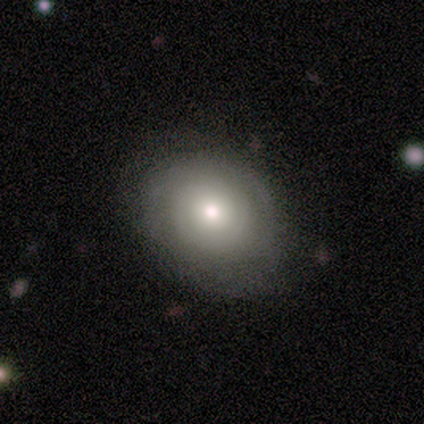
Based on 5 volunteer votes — This is clearly a smooth galaxy (80%). How rounded: possibly round (50%, tied with in between). Merging: clearly none (80%).